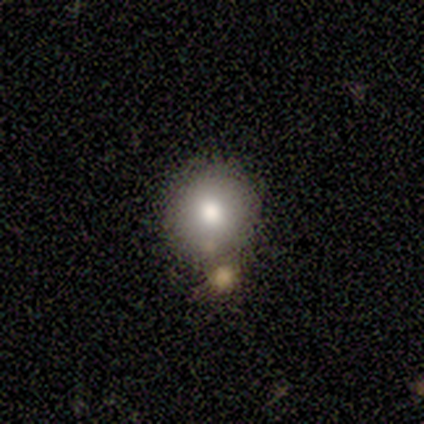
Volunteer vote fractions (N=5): Q: Smooth or featured?
A: smooth (80%); runner-up: featured or disk (20%)
Q: How rounded?
A: round (100%)
Q: Merging?
A: none (80%); runner-up: minor disturbance (20%)